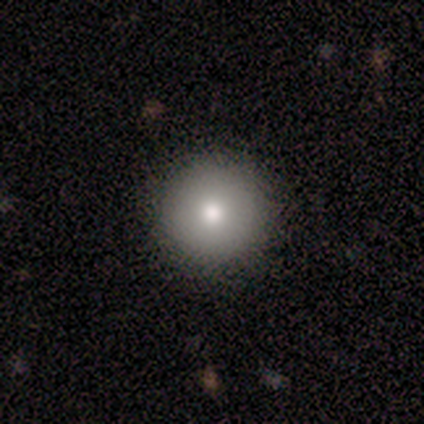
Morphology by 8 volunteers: Overall: smooth (75%). How rounded: round (100%). Merging: none (86%).